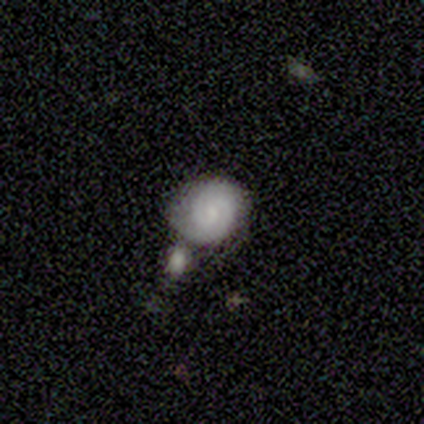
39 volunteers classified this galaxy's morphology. Volunteers were most divided on "bar" (2-way tie): weak: 45%, no: 45%, strong: 9%. Remaining: edge-on disk — no (96%); spiral arm count — 2 (89%); spiral arms — yes (86%); smooth or featured — featured or disk (59%); merging — none (58%); bulge size — small (55%); spiral winding — tight (47%).